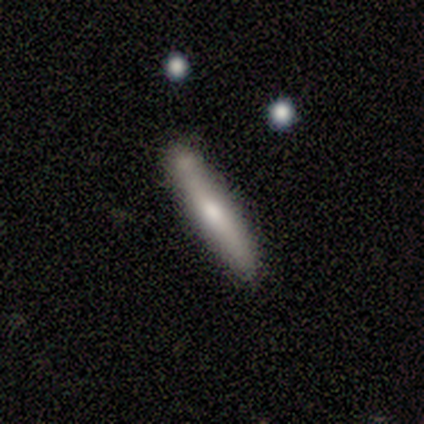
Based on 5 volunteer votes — Overall: smooth (80%). How rounded: cigar-shaped (100%). Merging: none (60%; minor disturbance 40%).